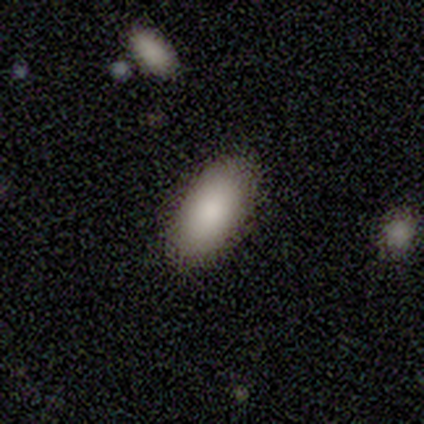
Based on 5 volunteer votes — Smooth or featured? 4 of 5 (80%) said smooth. How rounded? 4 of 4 (100%) said in between. Merging? 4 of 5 (80%) said none.